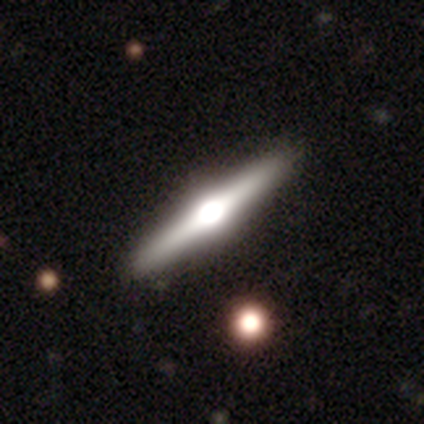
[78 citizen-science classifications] Morphology: type=featured or disk (79%); edge-on=yes (100%); edge-on bulge=rounded (92%); merging=none (49%).